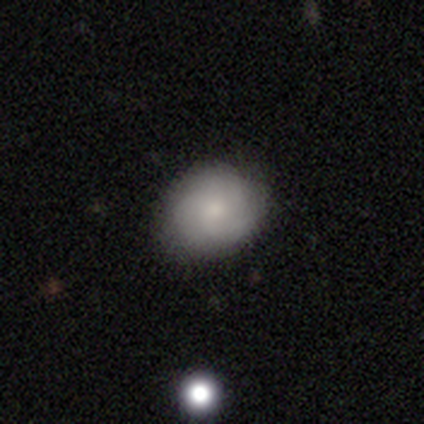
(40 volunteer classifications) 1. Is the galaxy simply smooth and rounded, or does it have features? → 70% smooth, 25% featured or disk, 5% star or artifact.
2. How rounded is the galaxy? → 57% round, 43% in between, 0% cigar-shaped.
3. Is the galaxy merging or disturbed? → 89% none, 11% minor disturbance, 0% major disturbance, 0% merger.